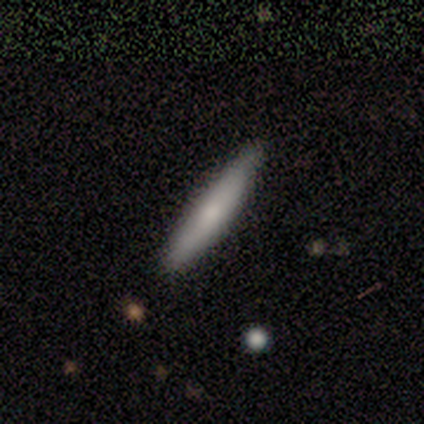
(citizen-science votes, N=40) smooth-or-featured: smooth: 72% | featured or disk: 25% | star or artifact: 2%
  how-rounded: cigar-shaped: 90% | in between: 10% | round: 0%
  merging: none: 72% | minor disturbance: 5% | major disturbance: 3% | merger: 0%